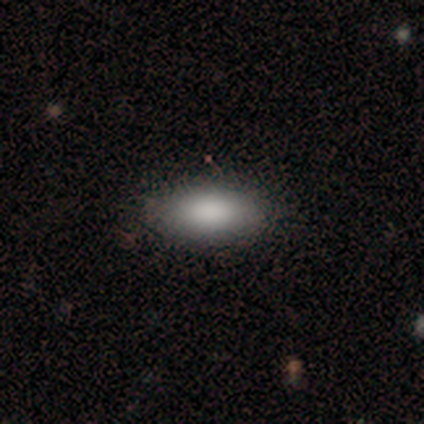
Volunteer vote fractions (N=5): A smooth galaxy with no disk features (80%) that is in between round and cigar-shaped (100%).

Vote fractions:
- Smooth or featured? smooth: 80% / star or artifact: 20% / featured or disk: 0%
- How rounded? in between: 100% / round: 0% / cigar-shaped: 0%
- Merging? none: 100% / minor disturbance: 0% / major disturbance: 0% / merger: 0%